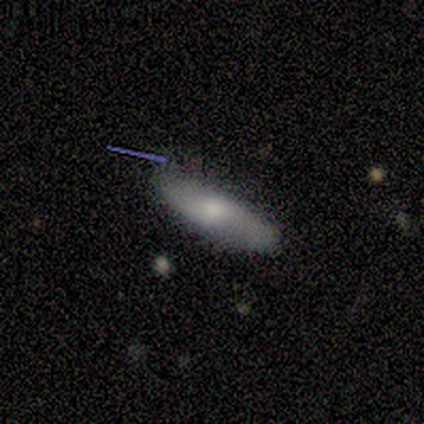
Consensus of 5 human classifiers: Volunteers were most divided on "how rounded": in between: 60%, cigar-shaped: 40%, round: 0%. More confident: smooth or featured — smooth (100%); merging — none (60%).